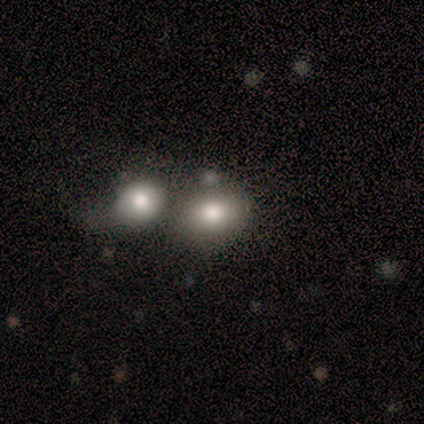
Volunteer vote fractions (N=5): Smooth or featured: smooth — 80% (featured or disk — 20%)
How rounded: round — 75% (in between — 25%)
Merging: merger — 60% (none — 20%)